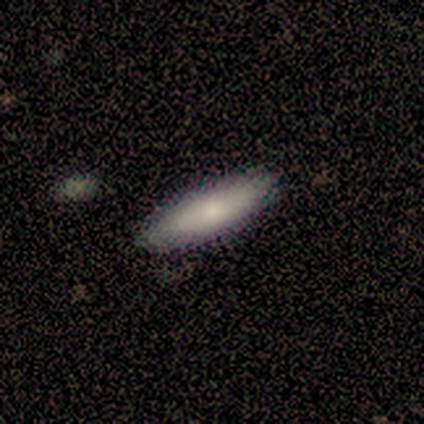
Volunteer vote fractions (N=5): Morphology: type=smooth (60%); roundness=in between (67%); merging=none (80%).